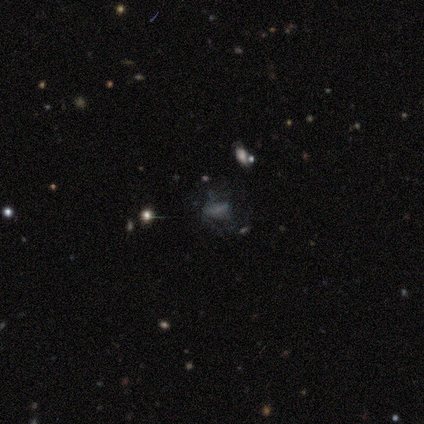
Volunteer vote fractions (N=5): Overall: smooth (80%). How rounded: in between (100%). Merging: none (80%).